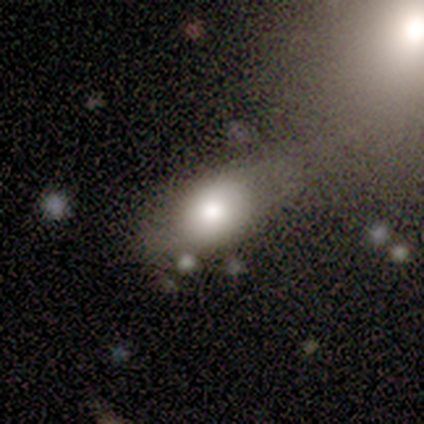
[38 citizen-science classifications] Morphology: type=smooth (82%); roundness=in between (90%); merging=none (34%).